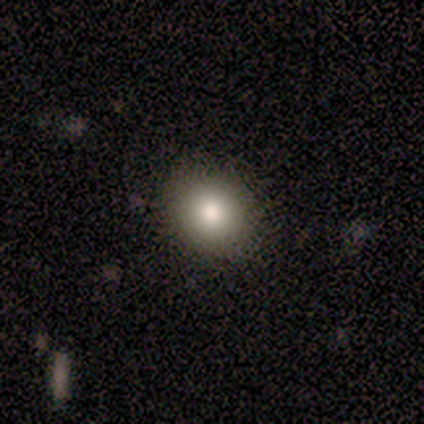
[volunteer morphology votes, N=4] A smooth galaxy with no disk features (75%) that is round (100%).

Vote fractions:
- Smooth or featured? smooth: 75% / star or artifact: 25% / featured or disk: 0%
- How rounded? round: 100% / in between: 0% / cigar-shaped: 0%
- Merging? none: 100% / minor disturbance: 0% / major disturbance: 0% / merger: 0%